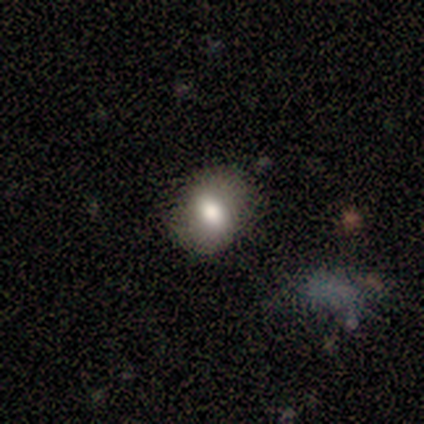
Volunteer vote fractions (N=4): A smooth galaxy with no disk features (100%) that is in between round and cigar-shaped (75%). Merging: none (75%).